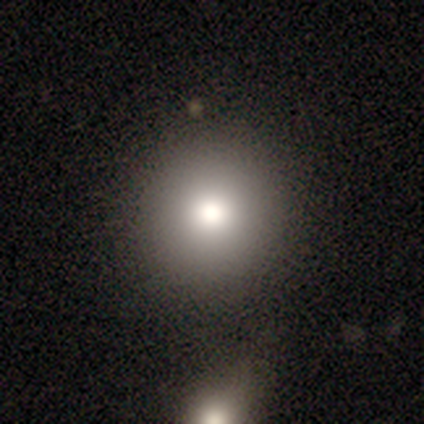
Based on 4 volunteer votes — Smooth or featured: smooth — 100%
How rounded: round — 100%
Merging: none — 100%